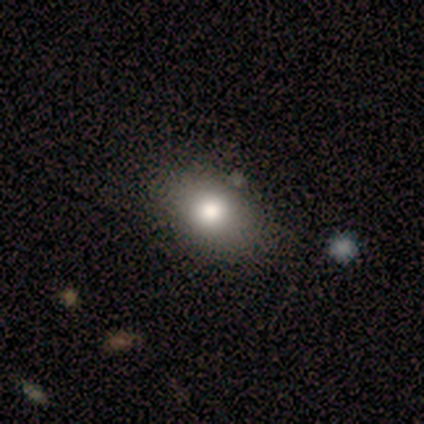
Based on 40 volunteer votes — Morphology: type=smooth (85%); roundness=in between (74%); merging=none (68%).